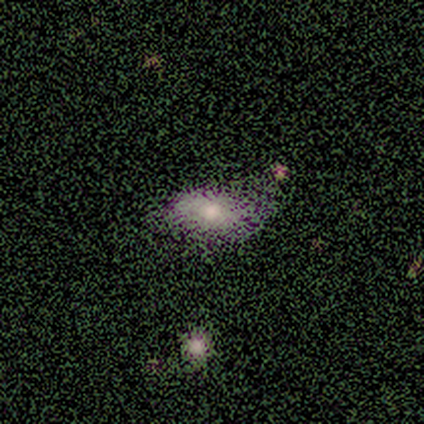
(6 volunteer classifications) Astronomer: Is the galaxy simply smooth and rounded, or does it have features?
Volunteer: smooth — 33%, tied with featured or disk and star or artifact at 33%.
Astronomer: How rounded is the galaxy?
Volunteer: in between — 100%.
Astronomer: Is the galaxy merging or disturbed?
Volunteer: none — 75%.